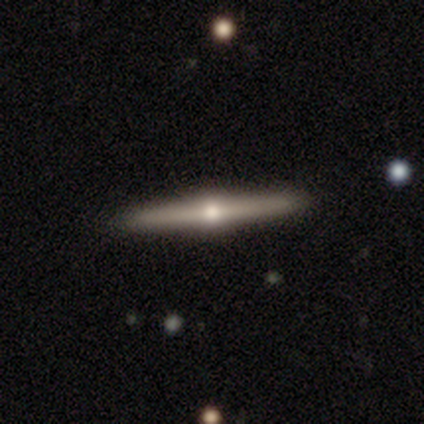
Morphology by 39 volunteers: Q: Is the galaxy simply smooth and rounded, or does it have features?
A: featured or disk — 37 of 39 (95%).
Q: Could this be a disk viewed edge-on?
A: yes — 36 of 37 (97%).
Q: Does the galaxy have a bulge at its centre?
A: rounded — 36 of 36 (100%).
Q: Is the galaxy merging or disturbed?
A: none — 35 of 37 (95%).